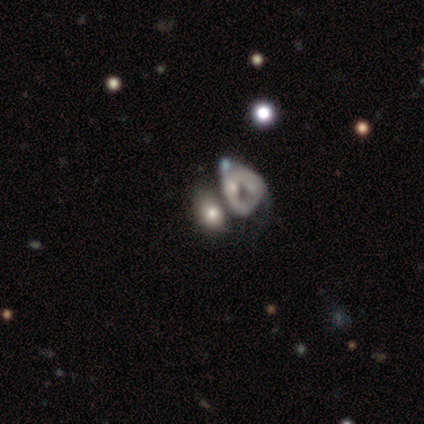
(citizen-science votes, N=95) Volunteers were most divided on "smooth or featured": smooth: 55%, featured or disk: 35%, star or artifact: 11%. More confident: how rounded — in between (65%); merging — merger (56%).